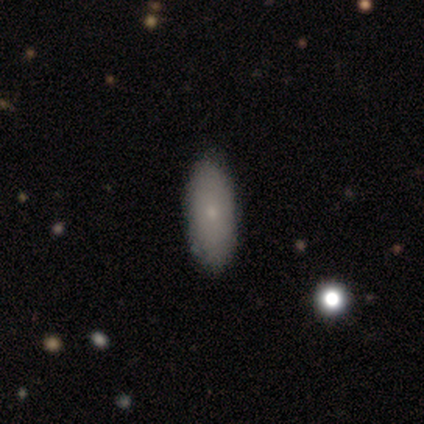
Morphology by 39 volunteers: Smooth or featured? 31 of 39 (79%) said smooth. How rounded? 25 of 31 (81%) said in between. Merging? 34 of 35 (97%) said none.